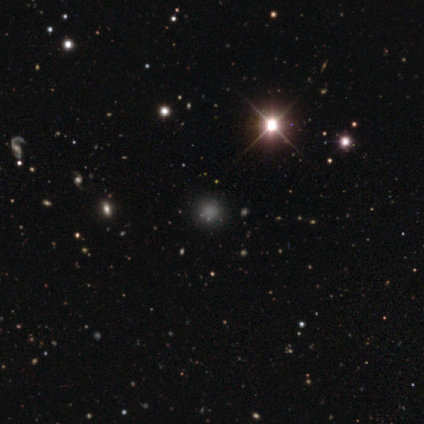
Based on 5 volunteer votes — Smooth or featured? star or artifact (100%)